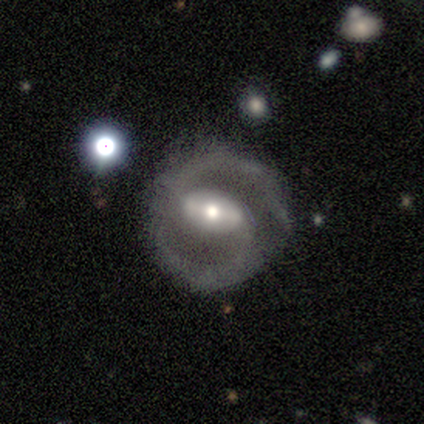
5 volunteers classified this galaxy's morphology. Smooth or featured?
  - featured or disk: 100% *
  - smooth: 0%
  - star or artifact: 0%
Edge-on disk?
  - no: 100% *
  - yes: 0%
Bar?
  - strong: 60% *
  - weak: 40%
  - no: 0%
Spiral arms?
  - yes: 100% *
  - no: 0%
Spiral winding?
  - medium: 100% *
  - tight: 0%
  - loose: 0%
Spiral arm count?
  - 2: 100% *
  - 1: 0%
  - 3: 0%
  - 4: 0%
  - more than 4: 0%
  - can't tell: 0%
Bulge size?
  - moderate: 60% *
  - small: 40%
  - dominant: 0%
  - large: 0%
  - none: 0%
Merging?
  - none: 100% *
  - minor disturbance: 0%
  - major disturbance: 0%
  - merger: 0%